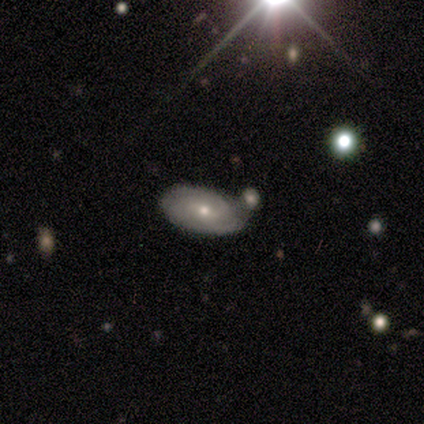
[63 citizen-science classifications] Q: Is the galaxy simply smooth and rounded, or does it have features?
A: featured or disk — 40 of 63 (63%).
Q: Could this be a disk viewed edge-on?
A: no — 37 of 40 (92%).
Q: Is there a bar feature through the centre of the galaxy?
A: weak — 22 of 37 (59%).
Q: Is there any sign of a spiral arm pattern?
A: yes — 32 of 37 (86%).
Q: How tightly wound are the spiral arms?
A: tight — 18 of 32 (56%).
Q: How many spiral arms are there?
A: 2 — 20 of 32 (62%).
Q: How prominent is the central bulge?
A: moderate — 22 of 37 (59%).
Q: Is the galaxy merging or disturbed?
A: none — 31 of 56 (55%).